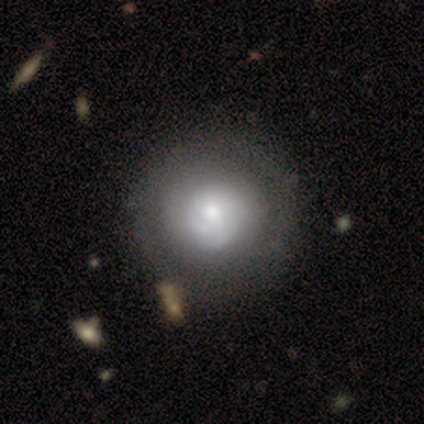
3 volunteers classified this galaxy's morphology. This appears to be a featured or disk galaxy (67%) with no bar (100%), no spiral arms (100%) and a moderate central bulge (100%). Merging: none (67%).